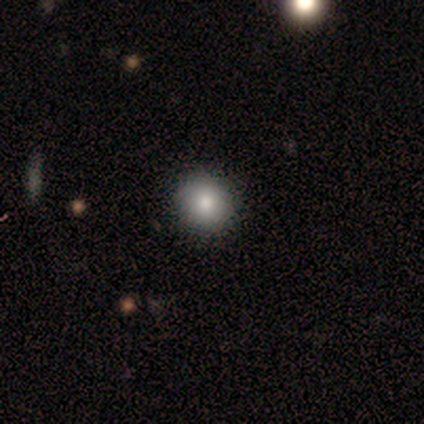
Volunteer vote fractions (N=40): Smooth or featured? 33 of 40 (82%) said smooth. How rounded? 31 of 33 (94%) said round. Merging? 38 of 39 (97%) said none.